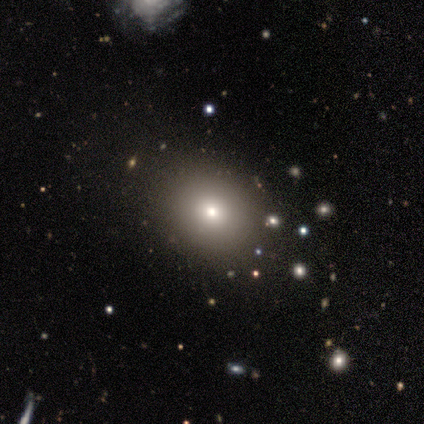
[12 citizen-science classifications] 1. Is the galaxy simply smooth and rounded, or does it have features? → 75% smooth, 25% star or artifact, 0% featured or disk.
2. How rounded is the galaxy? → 67% round, 33% in between, 0% cigar-shaped.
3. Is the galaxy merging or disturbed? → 78% none, 11% minor disturbance, 11% major disturbance, 0% merger.